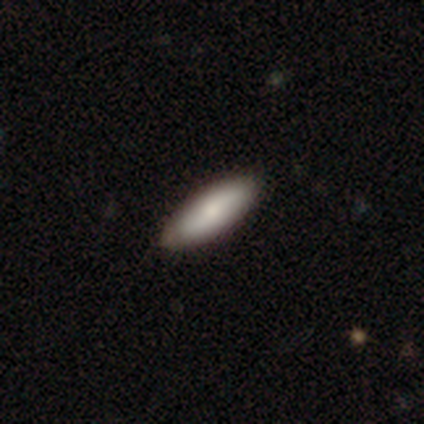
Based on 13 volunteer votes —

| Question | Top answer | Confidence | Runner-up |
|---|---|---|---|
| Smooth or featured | smooth | 100% | — |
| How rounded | in between | 69% | cigar-shaped (31%) |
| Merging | none | 77% | minor disturbance (15%) |